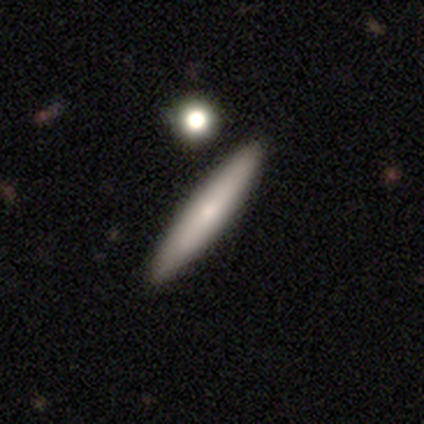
Q: Smooth or featured?
A: smooth (60%); runner-up: featured or disk (40%)
Q: How rounded?
A: cigar-shaped (100%)
Q: Merging?
A: none (100%)